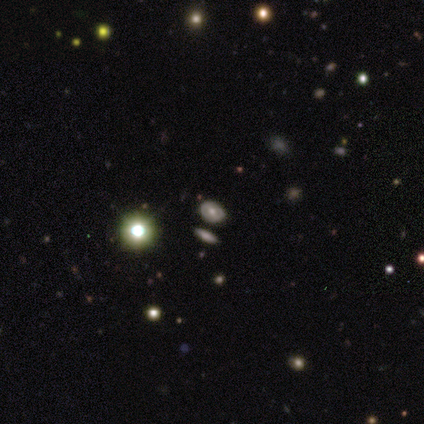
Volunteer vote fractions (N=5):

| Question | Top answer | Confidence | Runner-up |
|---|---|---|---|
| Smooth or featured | smooth | 40% | tied: featured or disk (40%) |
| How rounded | in between | 100% | — |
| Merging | none | 50% | tied: minor disturbance (50%) |